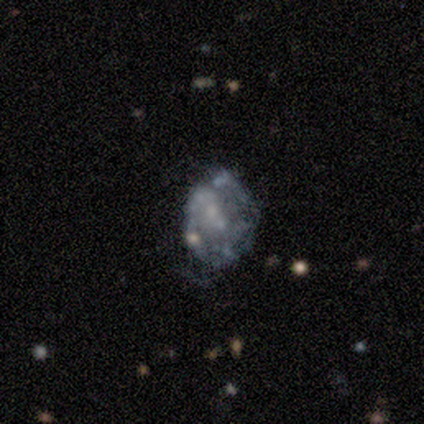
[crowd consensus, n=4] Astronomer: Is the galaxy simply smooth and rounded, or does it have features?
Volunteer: featured or disk — 75%.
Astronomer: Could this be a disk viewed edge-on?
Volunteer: no — 100%.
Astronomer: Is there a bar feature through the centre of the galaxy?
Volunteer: no — 100%.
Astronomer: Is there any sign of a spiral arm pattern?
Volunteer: no — 67%.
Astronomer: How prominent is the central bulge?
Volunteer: moderate — 33%, tied with small and none at 33%.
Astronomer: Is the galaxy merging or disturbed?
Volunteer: none — 50%, tied with major disturbance at 50%.